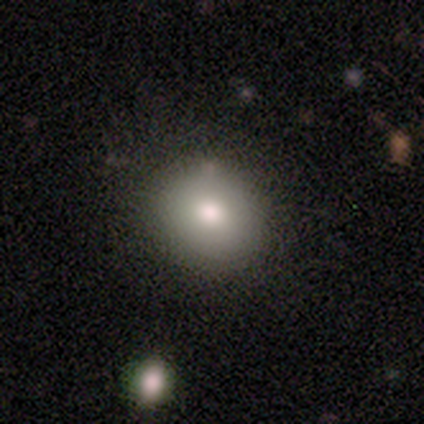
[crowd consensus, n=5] Overall: smooth (80%). How rounded: round (75%). Merging: none (100%).